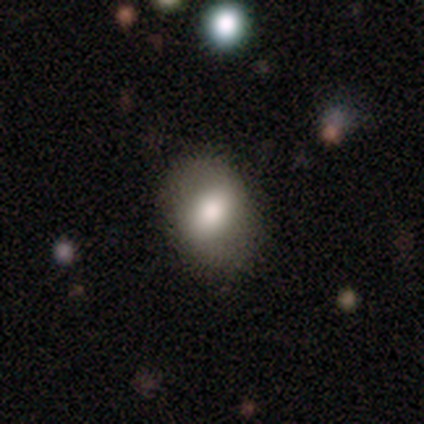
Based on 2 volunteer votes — Smooth or featured? 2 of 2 (100%) said smooth. How rounded? 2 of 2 (100%) said in between. Merging? 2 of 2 (100%) said none.